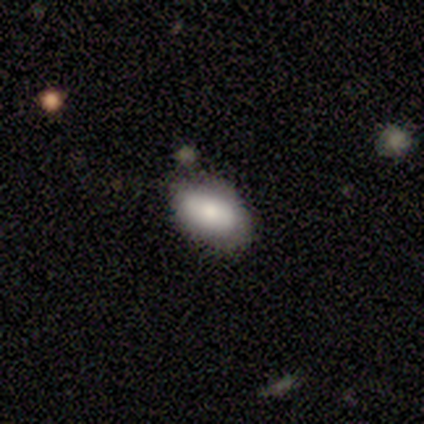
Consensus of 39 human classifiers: Overall: smooth (85%). How rounded: in between (85%). Merging: none (67%; minor disturbance 31%).